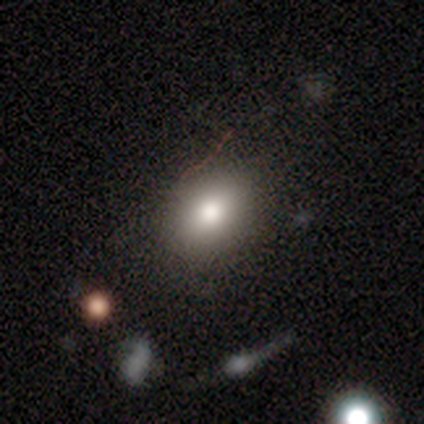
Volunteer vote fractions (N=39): smooth 67%, featured or disk 18%, star or artifact 15%. Down the decision tree: how rounded — in between (58%); merging — none (85%).